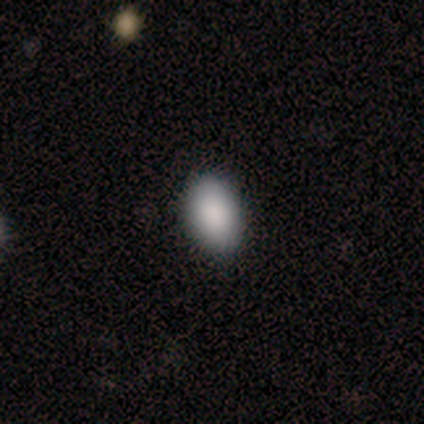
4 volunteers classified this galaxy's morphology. This appears to be a smooth galaxy with no disk features (75%) that is in between round and cigar-shaped (100%). Merging: none (100%).